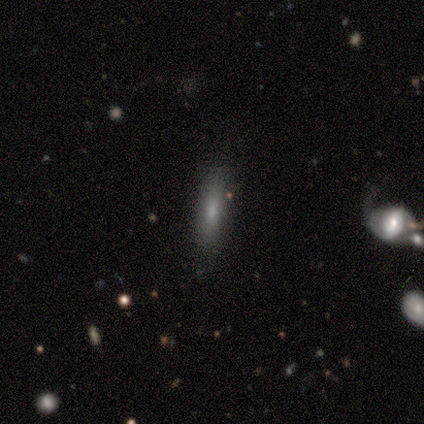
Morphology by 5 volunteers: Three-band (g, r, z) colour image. It shows a smooth galaxy with no disk features (80%) that is in between round and cigar-shaped (50%, tied with cigar-shaped). Merging: none (75%).